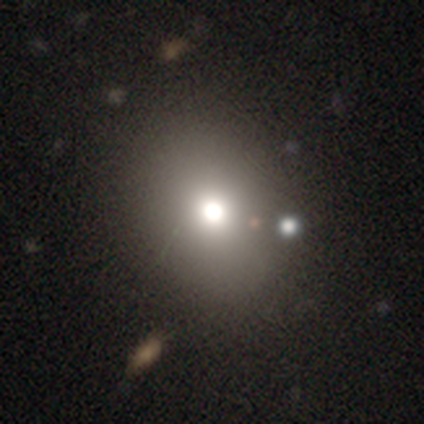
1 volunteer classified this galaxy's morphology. A star or artifact, not a galaxy (100%).